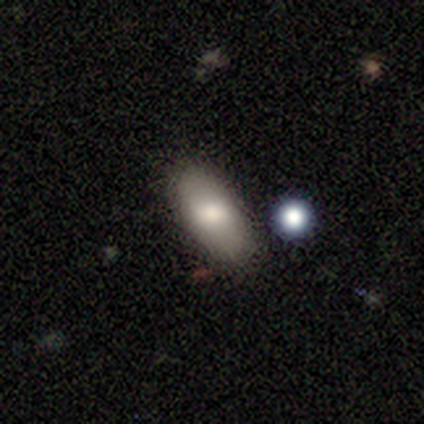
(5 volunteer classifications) Smooth or featured: smooth — 40% (tied with featured or disk — 40%)
How rounded: in between — 100%
Merging: none — 100%